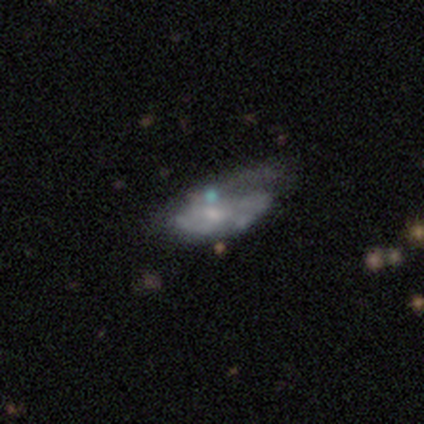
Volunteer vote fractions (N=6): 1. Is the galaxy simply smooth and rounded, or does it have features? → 67% featured or disk, 33% smooth, 0% star or artifact.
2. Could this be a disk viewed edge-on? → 100% no, 0% yes.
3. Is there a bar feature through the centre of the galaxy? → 50% weak (tied), 50% no (tied), 0% strong.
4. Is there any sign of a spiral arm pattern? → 75% no, 25% yes.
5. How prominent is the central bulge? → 50% small (tied), 50% none (tied), 0% dominant, 0% large, 0% moderate.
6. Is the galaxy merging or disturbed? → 50% major disturbance, 33% merger, 17% minor disturbance, 0% none.